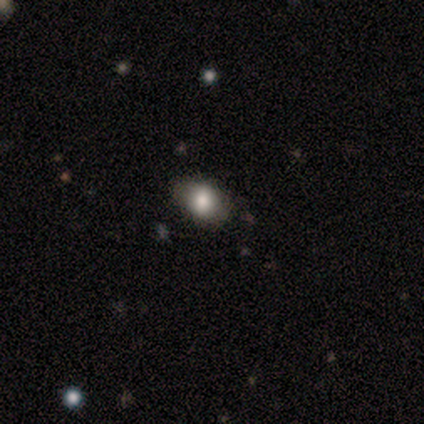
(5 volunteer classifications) This appears to be a smooth galaxy with no disk features (100%) that is in between round and cigar-shaped (100%). Merging: none (80%).